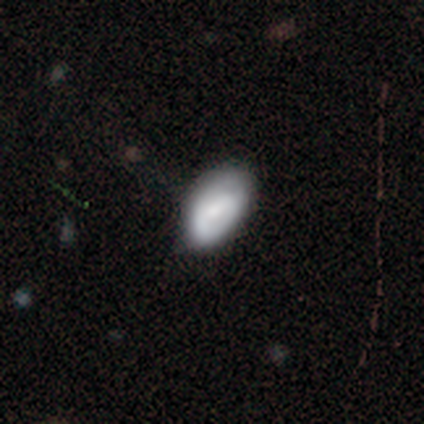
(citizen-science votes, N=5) A smooth galaxy with no disk features (80%) that is in between round and cigar-shaped (75%).

Vote fractions:
- Smooth or featured? smooth: 80% / featured or disk: 20% / star or artifact: 0%
- How rounded? in between: 75% / cigar-shaped: 25% / round: 0%
- Merging? none: 60% / minor disturbance: 40% / major disturbance: 0% / merger: 0%